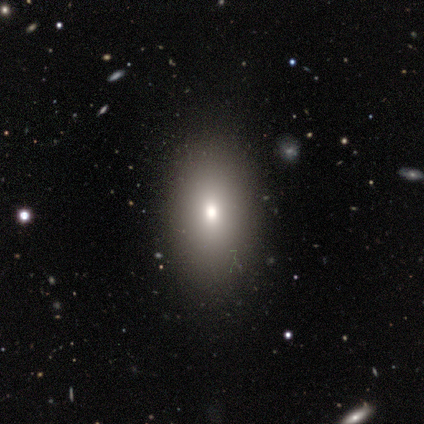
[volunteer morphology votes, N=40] type=smooth (78%); roundness=in between (77%); merging=none (81%).